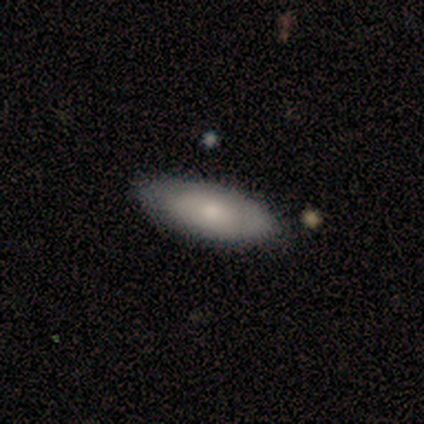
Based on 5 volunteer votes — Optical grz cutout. It shows a smooth galaxy with no disk features (60%) that is in between round and cigar-shaped (67%). Merging: none (80%).